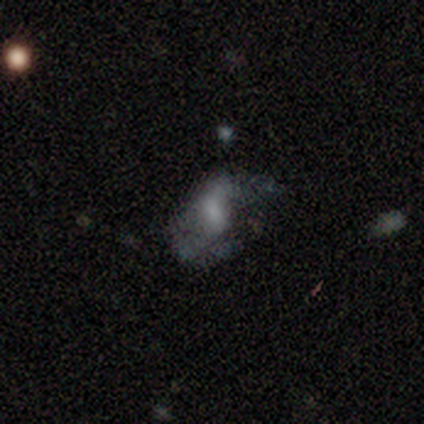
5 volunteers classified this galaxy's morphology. Smooth or featured? smooth (60%)
How rounded? in between (100%)
Merging? minor disturbance (60%)